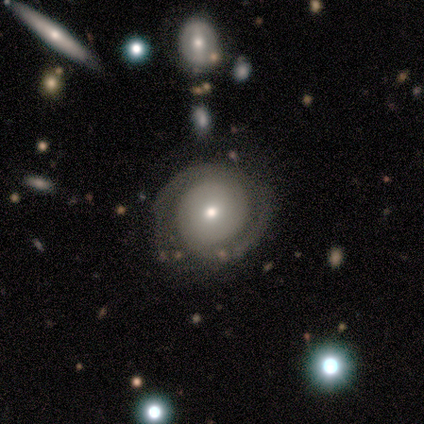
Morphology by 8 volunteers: Volunteers were most divided on "spiral winding" (2-way tie): tight: 40%, medium: 40%, loose: 20%. More confident: edge-on disk — no (100%); bar — no (100%); spiral arms — yes (83%); spiral arm count — 2 (80%); smooth or featured — featured or disk (75%); merging — none (75%); bulge size — small (50%).